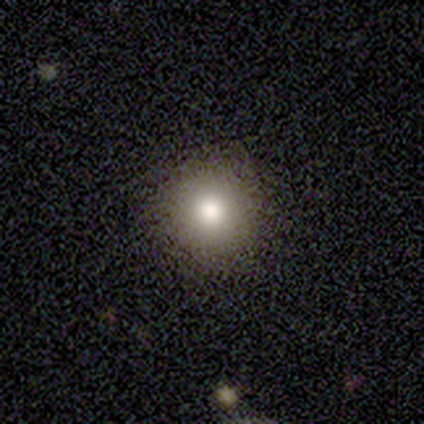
This is clearly a smooth galaxy (100%). How rounded: clearly round (100%). Merging: clearly none (100%).